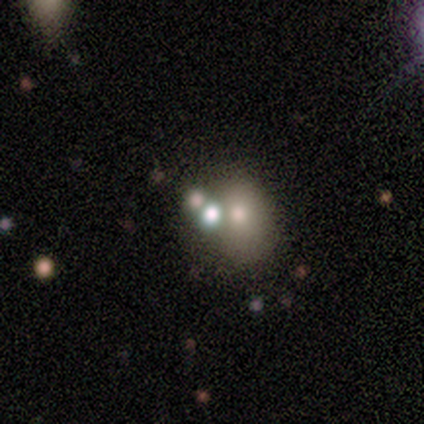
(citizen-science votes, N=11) smooth_or_featured: smooth (p=0.64) [alt: featured or disk p=0.18]
how_rounded: round (p=0.86) [alt: in between p=0.14]
merging: merger (p=0.78) [alt: none p=0.22]